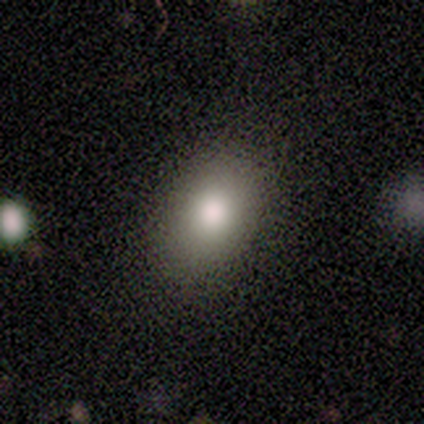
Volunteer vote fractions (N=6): Smooth or featured?
  - smooth: 100% *
  - featured or disk: 0%
  - star or artifact: 0%
How rounded?
  - in between: 67% *
  - round: 33%
  - cigar-shaped: 0%
Merging?
  - none: 83% *
  - minor disturbance: 17%
  - major disturbance: 0%
  - merger: 0%